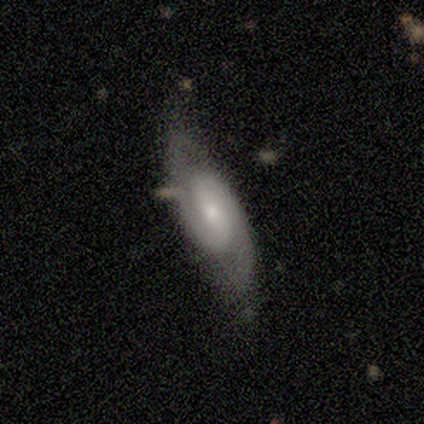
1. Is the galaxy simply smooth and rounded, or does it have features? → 92% featured or disk, 8% smooth, 0% star or artifact.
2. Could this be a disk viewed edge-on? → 100% no, 0% yes.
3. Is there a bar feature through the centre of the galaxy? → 55% no, 45% weak, 0% strong.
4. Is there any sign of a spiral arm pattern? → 91% yes, 9% no.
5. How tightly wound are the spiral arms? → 50% medium, 30% tight, 20% loose.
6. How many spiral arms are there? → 100% 2, 0% 1, 0% 3, 0% 4, 0% more than 4, 0% can't tell.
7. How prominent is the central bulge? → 82% small, 18% moderate, 0% dominant, 0% large, 0% none.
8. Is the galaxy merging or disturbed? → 83% none, 8% major disturbance, 8% merger, 0% minor disturbance.